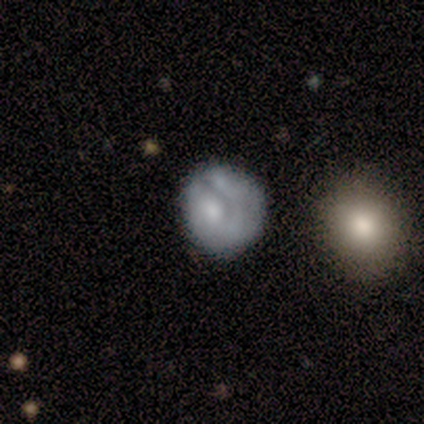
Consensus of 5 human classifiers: Morphology: type=smooth (60%); roundness=round (67%); merging=none (80%).